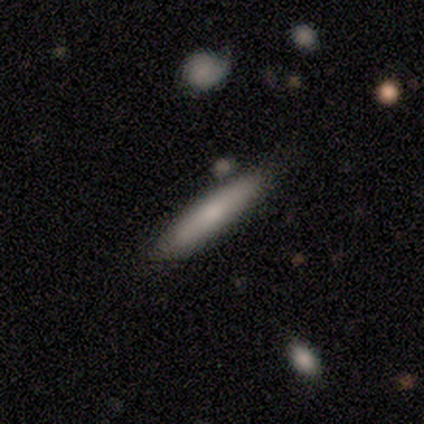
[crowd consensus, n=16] Smooth or featured: smooth — 69% (featured or disk — 19%)
How rounded: cigar-shaped — 100%
Merging: none — 86% (minor disturbance — 14%)